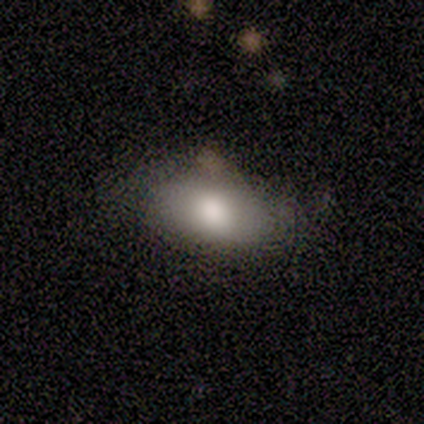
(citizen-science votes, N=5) smooth 100%, featured or disk 0%, star or artifact 0%. Down the decision tree: how rounded — in between (80%); merging — none (100%).